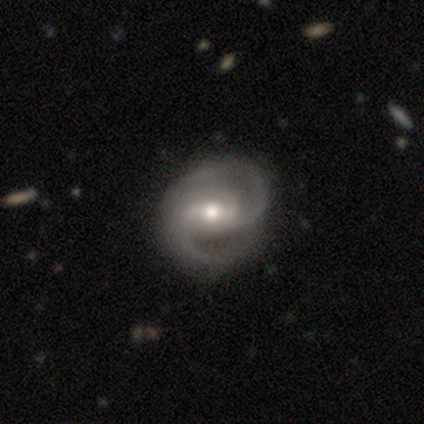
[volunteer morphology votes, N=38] Smooth or featured?
  - featured or disk: 95% *
  - smooth: 5%
  - star or artifact: 0%
Edge-on disk?
  - no: 100% *
  - yes: 0%
Bar?
  - weak: 58% *
  - strong: 33%
  - no: 8%
Spiral arms?
  - yes: 100% *
  - no: 0%
Spiral winding?
  - medium: 69% *
  - tight: 25%
  - loose: 6%
Spiral arm count?
  - 2: 72% *
  - 3: 28%
  - 1: 0%
  - 4: 0%
  - more than 4: 0%
  - can't tell: 0%
Bulge size?
  - moderate: 75% *
  - small: 19%
  - large: 6%
  - dominant: 0%
  - none: 0%
Merging?
  - none: 58% *
  - minor disturbance: 8%
  - major disturbance: 3%
  - merger: 0%